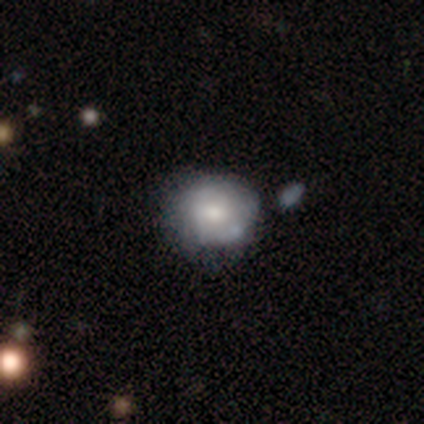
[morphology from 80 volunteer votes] Volunteers were most divided on "merging": none: 28%, minor disturbance: 17%, merger: 12%, major disturbance: 3%. More confident: how rounded — round (84%); smooth or featured — smooth (54%).